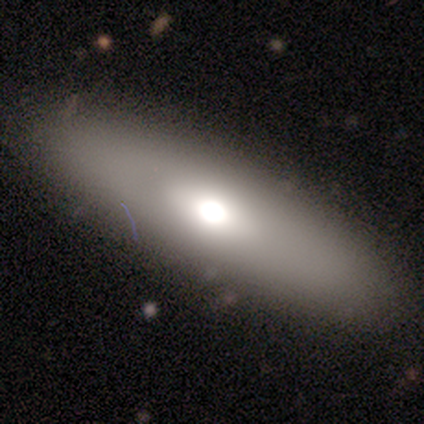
Smooth or featured? featured or disk (60%)
Edge-on disk? yes (100%)
Edge-on bulge? rounded (100%)
Merging? none (75%)